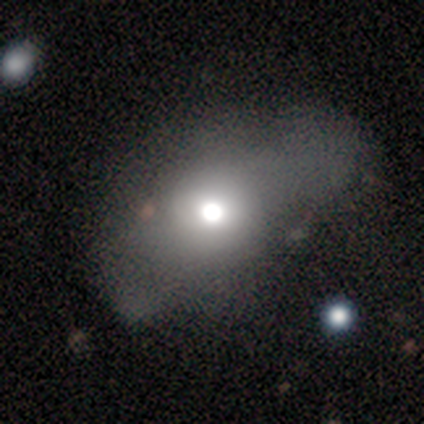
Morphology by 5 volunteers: Q: Smooth or featured?
A: smooth (40%); tied with: featured or disk (40%)
Q: How rounded?
A: round (50%); tied with: in between (50%)
Q: Merging?
A: none (75%); runner-up: major disturbance (25%)